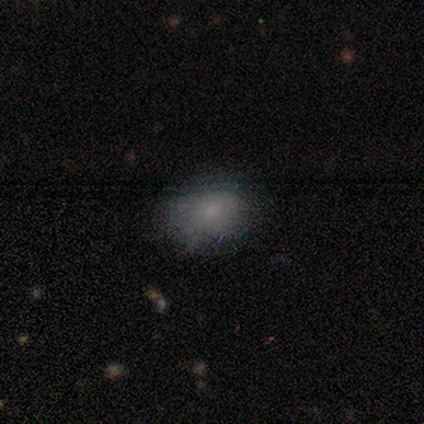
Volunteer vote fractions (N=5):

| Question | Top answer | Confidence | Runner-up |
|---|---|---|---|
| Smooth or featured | smooth | 60% | featured or disk (40%) |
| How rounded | in between | 67% | round (33%) |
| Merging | minor disturbance | 60% | none (40%) |